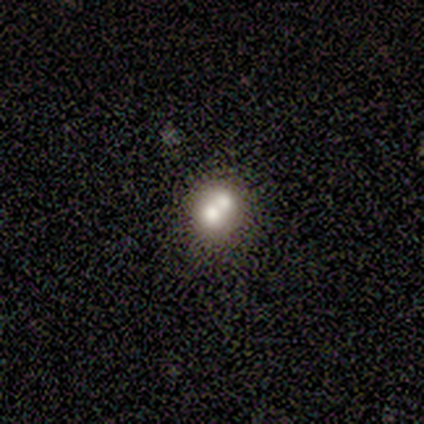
Smooth or featured? smooth (75%)
How rounded? in between (67%)
Merging? none (50%, tied with merger)